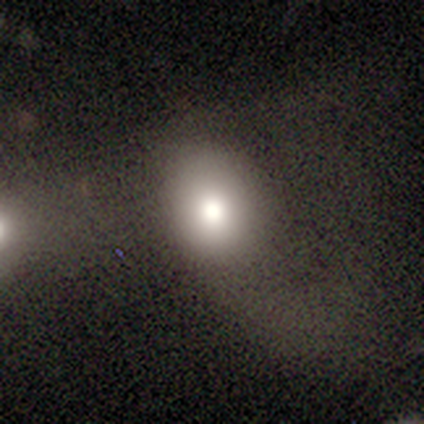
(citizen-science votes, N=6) A smooth galaxy with no disk features (50%) that is round (67%).

Vote fractions:
- Smooth or featured? smooth: 50% / star or artifact: 33% / featured or disk: 17%
- How rounded? round: 67% / in between: 33% / cigar-shaped: 0%
- Merging? none: 50% (tied) / major disturbance: 50% (tied) / minor disturbance: 0% / merger: 0%